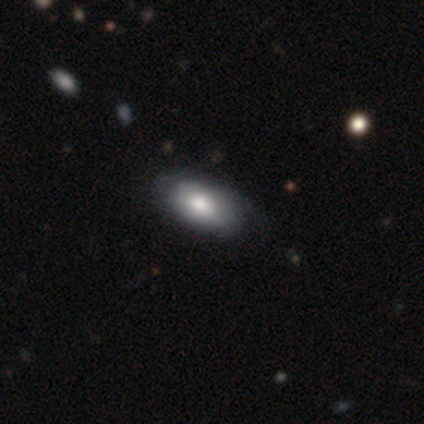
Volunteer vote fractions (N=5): Morphology: type=smooth (40%, tied with star or artifact); roundness=in between (100%); merging=none (100%).